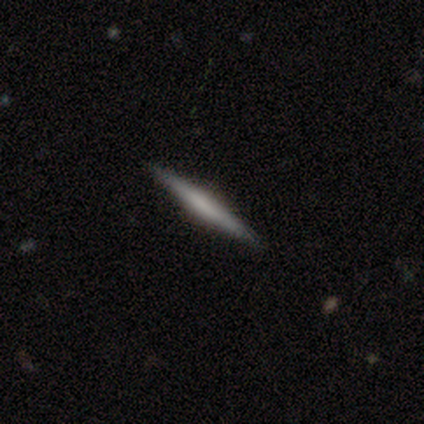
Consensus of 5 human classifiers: Smooth or featured?
  - smooth: 60% *
  - featured or disk: 40%
  - star or artifact: 0%
How rounded?
  - cigar-shaped: 100% *
  - round: 0%
  - in between: 0%
Merging?
  - none: 100% *
  - minor disturbance: 0%
  - major disturbance: 0%
  - merger: 0%